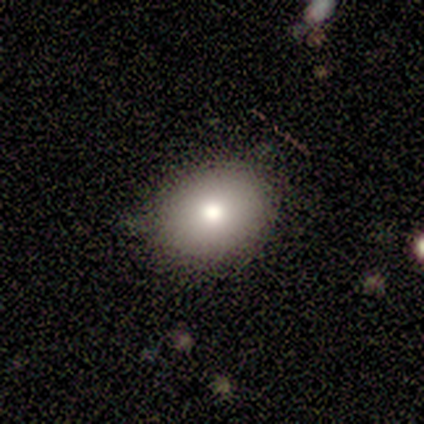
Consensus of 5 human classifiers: smooth-or-featured: smooth: 40% (tied) | star or artifact: 40% (tied) | featured or disk: 20%
  how-rounded: in between: 100% | round: 0% | cigar-shaped: 0%
  merging: none: 100% | minor disturbance: 0% | major disturbance: 0% | merger: 0%